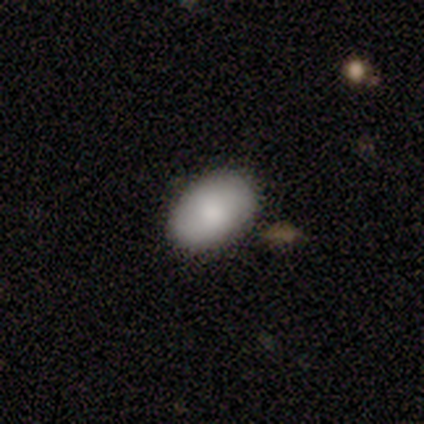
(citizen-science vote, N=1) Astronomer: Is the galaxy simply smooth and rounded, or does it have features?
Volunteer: smooth — 100%.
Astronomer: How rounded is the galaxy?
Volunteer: in between — 100%.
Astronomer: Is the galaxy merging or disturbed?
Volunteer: none — 100%.